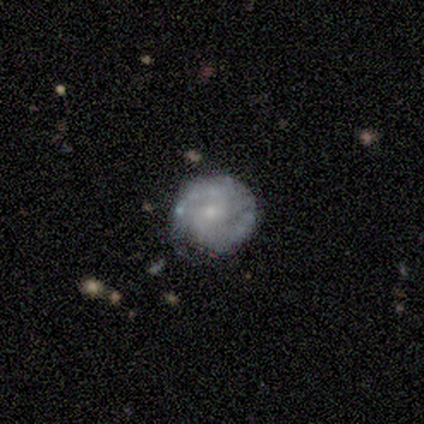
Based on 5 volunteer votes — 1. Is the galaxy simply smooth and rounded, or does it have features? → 100% featured or disk, 0% smooth, 0% star or artifact.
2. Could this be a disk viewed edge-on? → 100% no, 0% yes.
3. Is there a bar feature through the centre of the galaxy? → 60% no, 40% weak, 0% strong.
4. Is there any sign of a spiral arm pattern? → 80% yes, 20% no.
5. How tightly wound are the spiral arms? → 75% medium, 25% tight, 0% loose.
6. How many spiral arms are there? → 100% 2, 0% 1, 0% 3, 0% 4, 0% more than 4, 0% can't tell.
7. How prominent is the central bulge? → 60% small, 40% moderate, 0% dominant, 0% large, 0% none.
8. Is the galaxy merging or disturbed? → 60% none, 40% minor disturbance, 0% major disturbance, 0% merger.